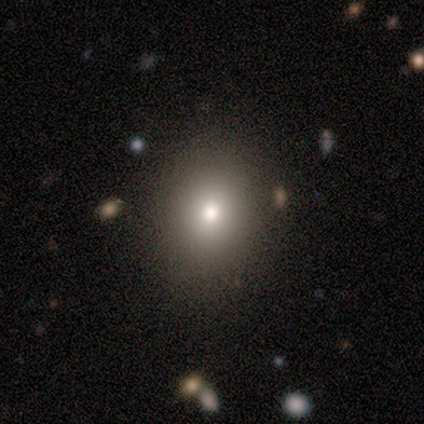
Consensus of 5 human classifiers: A smooth galaxy with no disk features (60%) that is round (100%).

Vote fractions:
- Smooth or featured? smooth: 60% / featured or disk: 20% / star or artifact: 20%
- How rounded? round: 100% / in between: 0% / cigar-shaped: 0%
- Merging? none: 100% / minor disturbance: 0% / major disturbance: 0% / merger: 0%